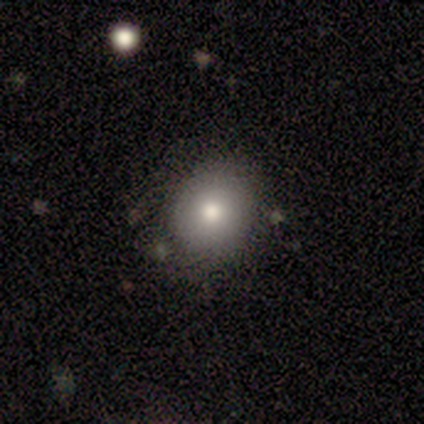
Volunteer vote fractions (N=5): Q: Smooth or featured?
A: smooth (80%); runner-up: featured or disk (20%)
Q: How rounded?
A: round (100%)
Q: Merging?
A: none (100%)